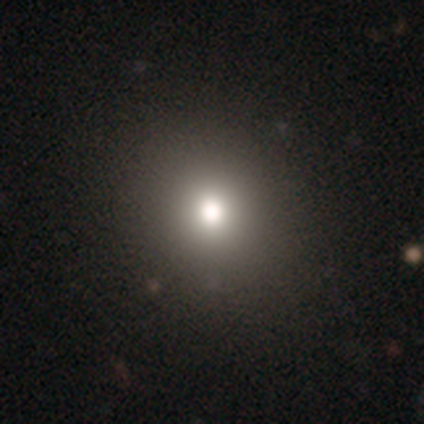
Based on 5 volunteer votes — A smooth galaxy with no disk features (60%) that is round (100%). Merging: none (100%).